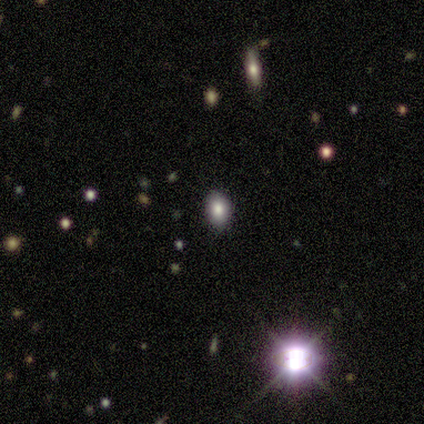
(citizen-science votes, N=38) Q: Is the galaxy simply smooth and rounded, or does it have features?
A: star or artifact — 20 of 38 (53%).